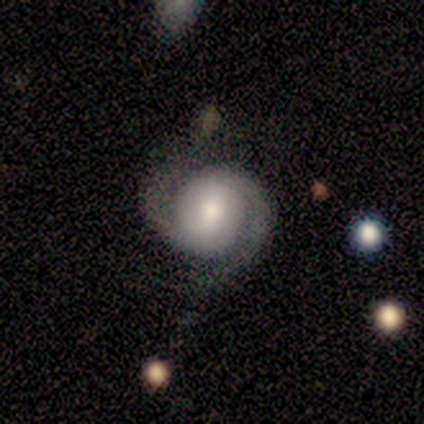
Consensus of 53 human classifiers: Smooth or featured: featured or disk — 83% (smooth — 15%)
Edge-on disk: no — 98% (yes — 2%)
Bar: no — 42% (weak — 37%)
Spiral arms: yes — 100%
Spiral winding: tight — 60% (medium — 35%)
Spiral arm count: 2 — 95% (can't tell — 5%)
Bulge size: moderate — 51% (large — 28%)
Merging: none — 69% (minor disturbance — 19%)